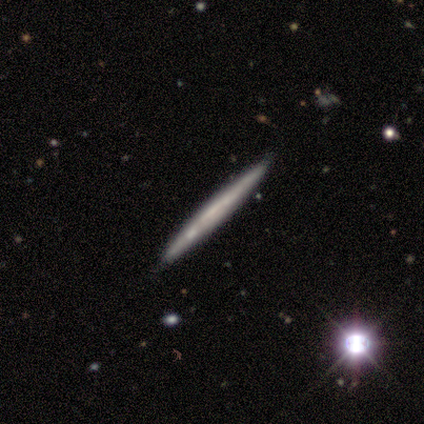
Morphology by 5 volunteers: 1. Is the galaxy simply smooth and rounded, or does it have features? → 40% smooth (tied), 40% featured or disk (tied), 20% star or artifact.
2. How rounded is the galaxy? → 100% cigar-shaped, 0% round, 0% in between.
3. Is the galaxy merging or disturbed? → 75% none, 25% minor disturbance, 0% major disturbance, 0% merger.